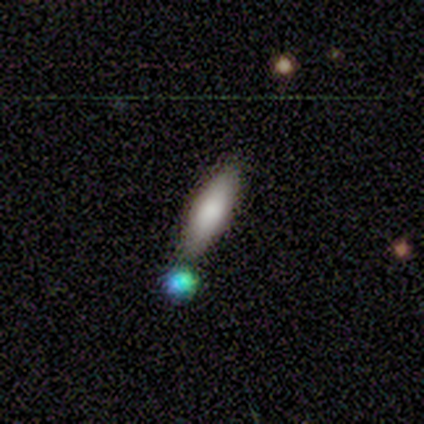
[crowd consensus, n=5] Overall: smooth (80%). How rounded: in between (75%). Merging: none (60%; minor disturbance 40%).